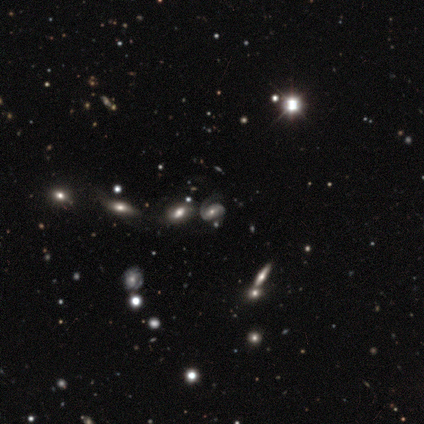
Morphology: type=featured or disk (74%); edge-on=no (94%); bar=no (55%); spiral arms=yes (88%); winding=medium (62%); arm count=2 (59%); bulge=moderate (42%, tied with small); merging=none (57%).